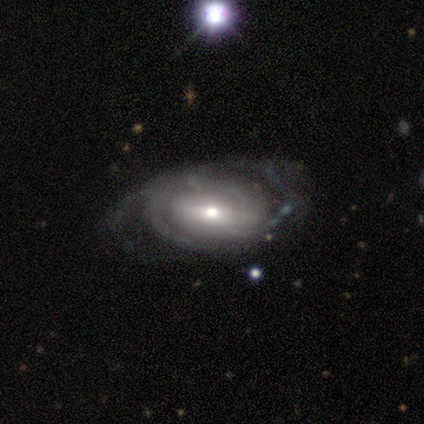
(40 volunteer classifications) Volunteers were most divided on "spiral winding" (2-way tie): tight: 41%, medium: 41%, loose: 17%. Remaining: edge-on disk — no (100%); smooth or featured — featured or disk (92%); spiral arms — yes (78%); bulge size — moderate (62%); merging — none (59%); spiral arm count — 2 (55%); bar — no (43%).